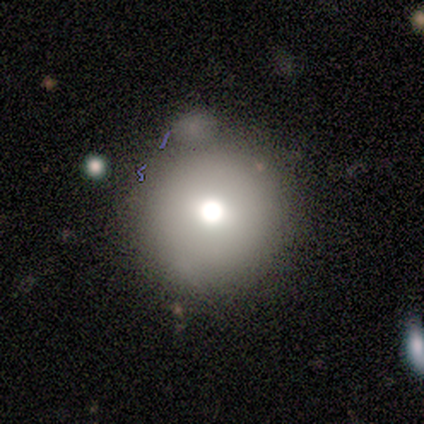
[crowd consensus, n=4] Smooth or featured: smooth — 50% (featured or disk — 25%)
How rounded: round — 100%
Merging: none — 33% (tied with minor disturbance — 33%; merger — 33%)